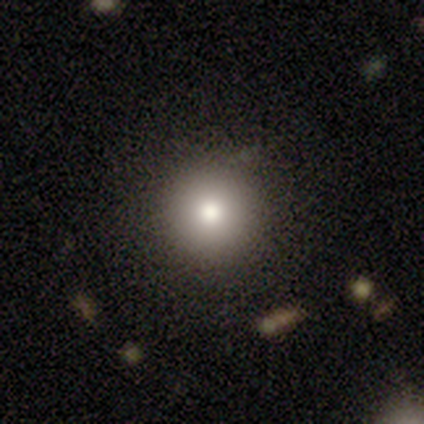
smooth-or-featured: smooth: 40% (tied) | featured or disk: 40% (tied) | star or artifact: 20%
  how-rounded: round: 100% | in between: 0% | cigar-shaped: 0%
  merging: none: 100% | minor disturbance: 0% | major disturbance: 0% | merger: 0%